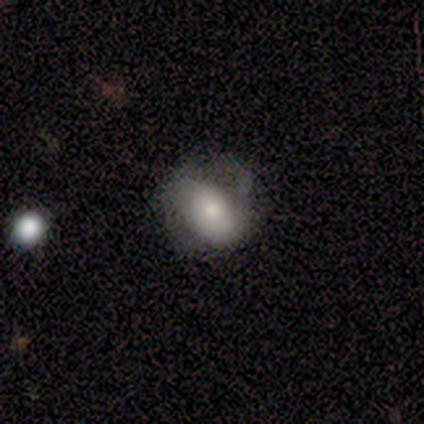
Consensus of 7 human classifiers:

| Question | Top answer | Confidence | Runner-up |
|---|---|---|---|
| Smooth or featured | featured or disk | 86% | smooth (14%) |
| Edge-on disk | no | 83% | yes (17%) |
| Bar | no | 80% | weak (20%) |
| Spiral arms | yes | 60% | no (40%) |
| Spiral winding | medium | 100% | — |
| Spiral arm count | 2 | 67% | 1 (33%) |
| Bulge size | moderate | 100% | — |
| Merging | none | 57% | major disturbance (29%) |